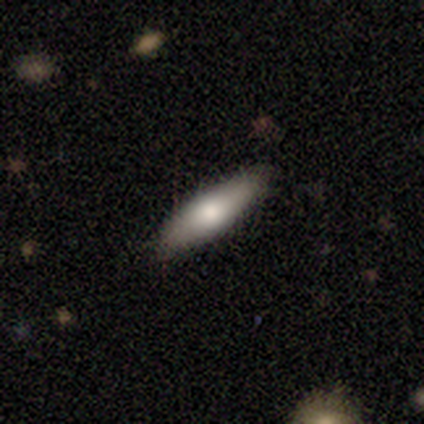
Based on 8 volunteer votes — Volunteers were most divided on "how rounded": cigar-shaped: 57%, in between: 43%, round: 0%. More confident: smooth or featured — smooth (88%); merging — none (62%).